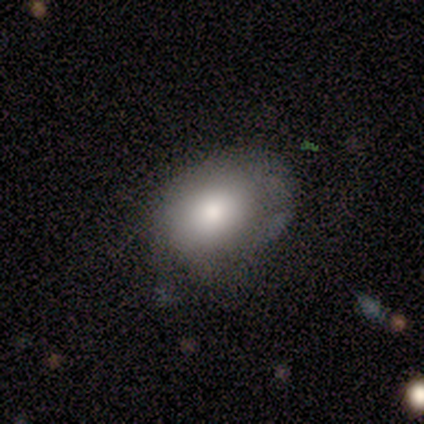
A smooth galaxy with no disk features (40%, tied with featured or disk) that is round (50%, tied with in between).

Vote fractions:
- Smooth or featured? smooth: 40% (tied) / featured or disk: 40% (tied) / star or artifact: 20%
- How rounded? round: 50% (tied) / in between: 50% (tied) / cigar-shaped: 0%
- Merging? none: 50% / minor disturbance: 25% / major disturbance: 25% / merger: 0%